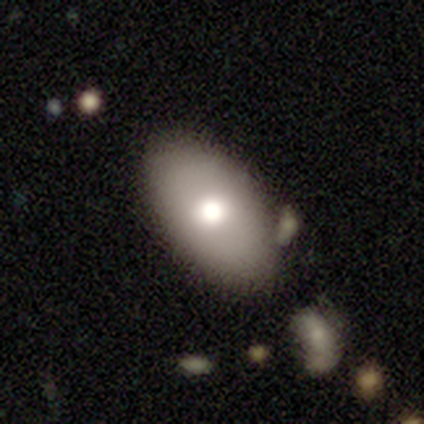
A smooth galaxy with no disk features (73%) that is in between round and cigar-shaped (96%). Merging: none (65%).